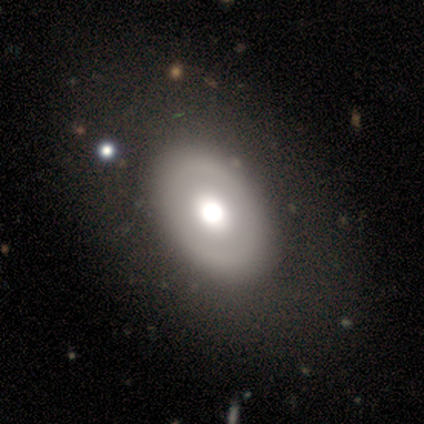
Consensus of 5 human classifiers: This is clearly a featured or disk galaxy (80%). It is clearly not viewed edge-on (100%). Bar: possibly weak (50%, tied with no). Spiral arm pattern: clearly no (100%). Central bulge: possibly large (50%). Merging: clearly none (80%).